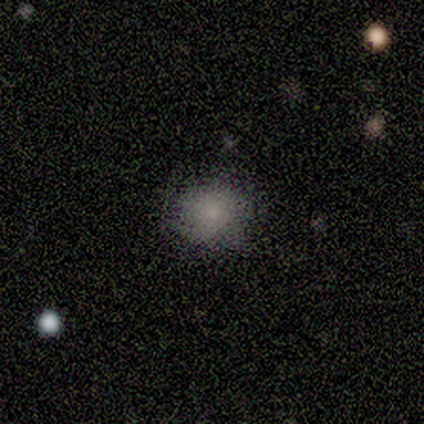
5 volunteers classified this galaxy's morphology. A smooth galaxy with no disk features (60%) that is round (67%). Merging: major disturbance (67%).